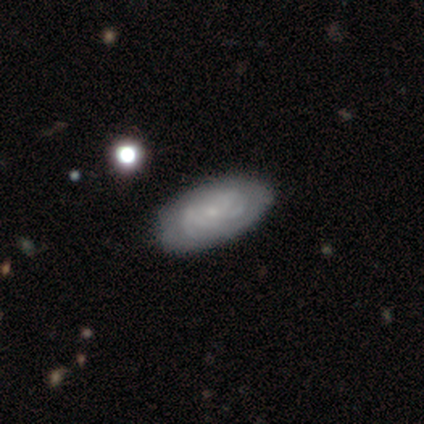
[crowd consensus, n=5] Q: Smooth or featured?
A: featured or disk (80%); runner-up: smooth (20%)
Q: Edge-on disk?
A: no (100%)
Q: Bar?
A: no (75%); runner-up: weak (25%)
Q: Spiral arms?
A: yes (50%); tied with: no (50%)
Q: Spiral winding?
A: tight (50%); tied with: medium (50%)
Q: Spiral arm count?
A: 4 (50%); tied with: can't tell (50%)
Q: Bulge size?
A: small (100%)
Q: Merging?
A: none (60%); runner-up: minor disturbance (40%)